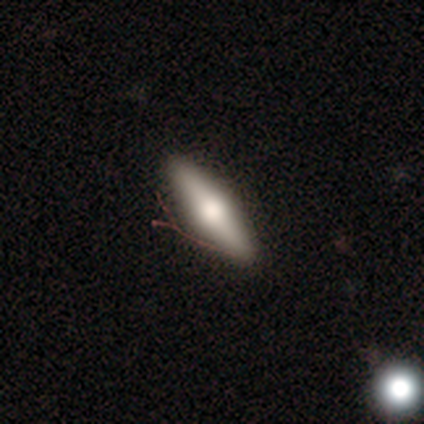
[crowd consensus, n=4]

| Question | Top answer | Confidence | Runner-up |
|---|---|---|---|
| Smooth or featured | smooth | 50% | tied: featured or disk (50%) |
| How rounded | in between | 50% | tied: cigar-shaped (50%) |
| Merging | none | 75% | minor disturbance (25%) |